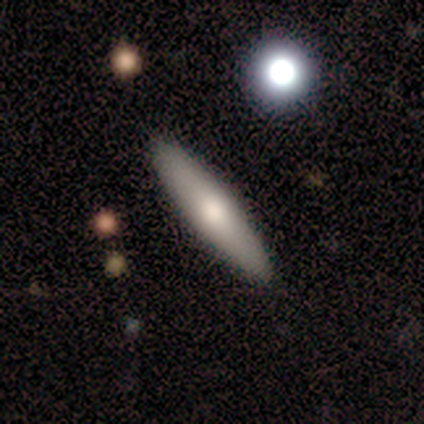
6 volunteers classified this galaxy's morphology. Overall: smooth (67%; featured or disk 33%). How rounded: cigar-shaped (75%). Merging: none (100%).